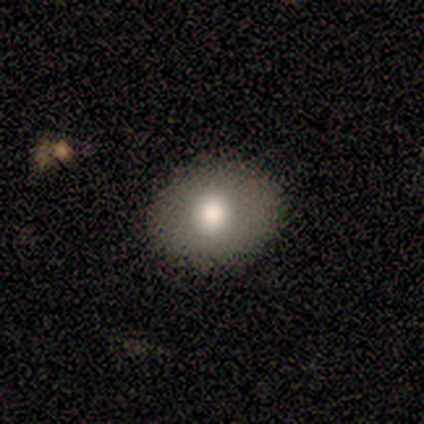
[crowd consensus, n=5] A smooth galaxy with no disk features (60%) that is round (100%). Merging: none (80%).